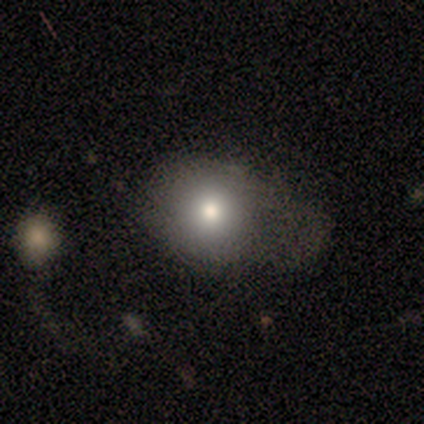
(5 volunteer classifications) A smooth galaxy with no disk features (60%) that is round (67%).

Vote fractions:
- Smooth or featured? smooth: 60% / star or artifact: 40% / featured or disk: 0%
- How rounded? round: 67% / in between: 33% / cigar-shaped: 0%
- Merging? none: 67% / minor disturbance: 33% / major disturbance: 0% / merger: 0%